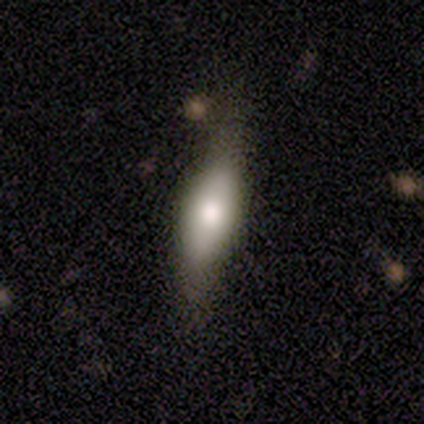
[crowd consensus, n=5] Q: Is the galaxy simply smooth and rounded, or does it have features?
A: smooth — 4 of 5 (80%).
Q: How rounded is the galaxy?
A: in between — 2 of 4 (50%, tied with cigar-shaped).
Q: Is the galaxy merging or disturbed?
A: none — 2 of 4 (50%).